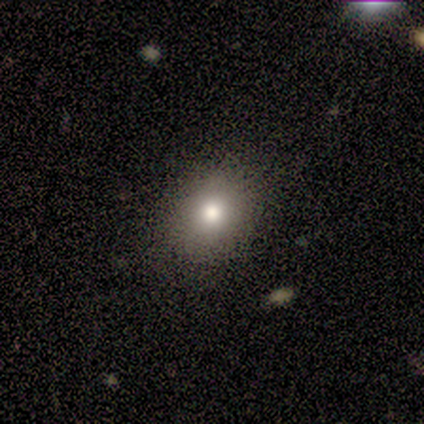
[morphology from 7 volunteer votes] This is clearly a smooth galaxy (86%). How rounded: likely in between (67%). Merging: clearly none (86%).